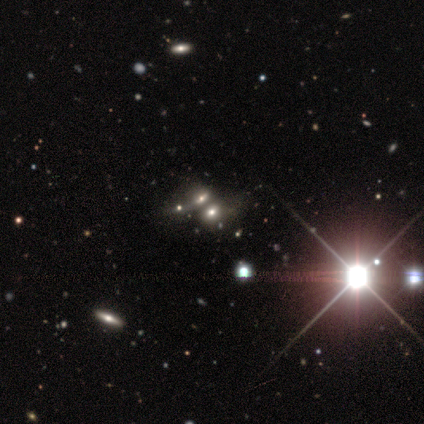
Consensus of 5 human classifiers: smooth-or-featured: smooth: 60% | star or artifact: 40% | featured or disk: 0%
  how-rounded: in between: 67% | round: 33% | cigar-shaped: 0%
  merging: none: 67% | merger: 33% | minor disturbance: 0% | major disturbance: 0%